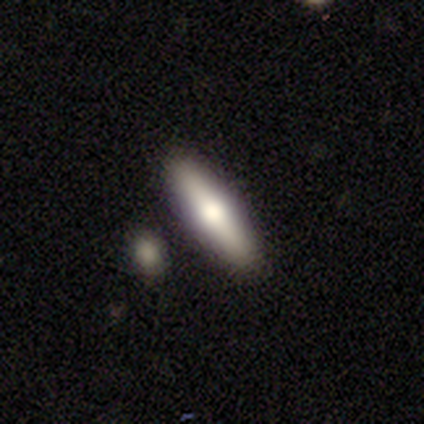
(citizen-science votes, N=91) smooth 55%, featured or disk 41%, star or artifact 4%. Down the decision tree: how rounded — cigar-shaped (74%); merging — none (91%).